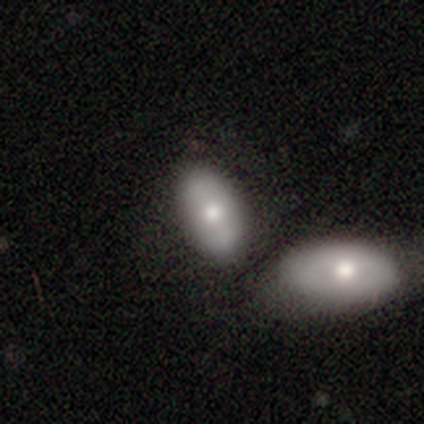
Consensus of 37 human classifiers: Smooth or featured? 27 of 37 (73%) said smooth. How rounded? 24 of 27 (89%) said in between. Merging? 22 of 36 (61%) said merger.